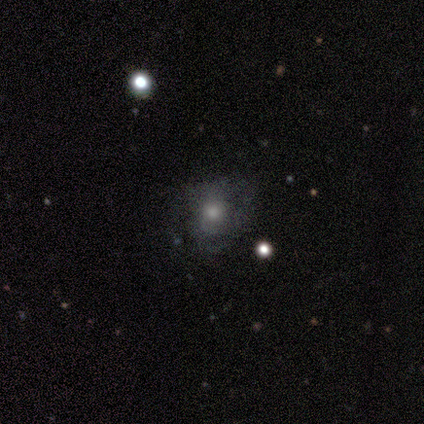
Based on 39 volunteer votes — This is possibly a smooth galaxy (56%). How rounded: clearly round (82%). Merging: possibly none (56%).